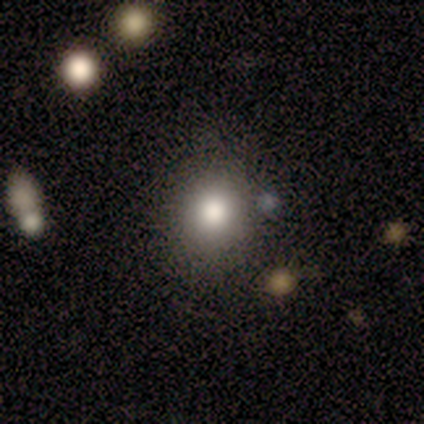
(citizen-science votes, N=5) A smooth galaxy with no disk features (100%) that is round (80%).

Vote fractions:
- Smooth or featured? smooth: 100% / featured or disk: 0% / star or artifact: 0%
- How rounded? round: 80% / in between: 20% / cigar-shaped: 0%
- Merging? none: 100% / minor disturbance: 0% / major disturbance: 0% / merger: 0%